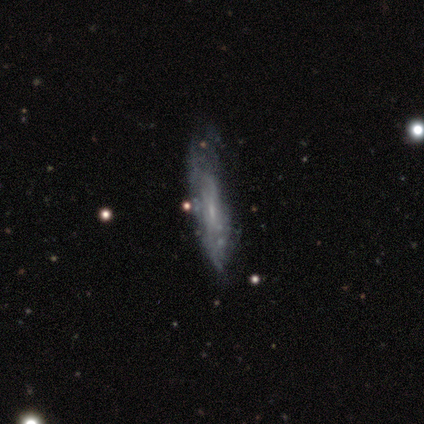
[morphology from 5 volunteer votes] A smooth galaxy with no disk features (60%) that is in between round and cigar-shaped (67%).

Vote fractions:
- Smooth or featured? smooth: 60% / featured or disk: 40% / star or artifact: 0%
- How rounded? in between: 67% / cigar-shaped: 33% / round: 0%
- Merging? minor disturbance: 60% / none: 40% / major disturbance: 0% / merger: 0%